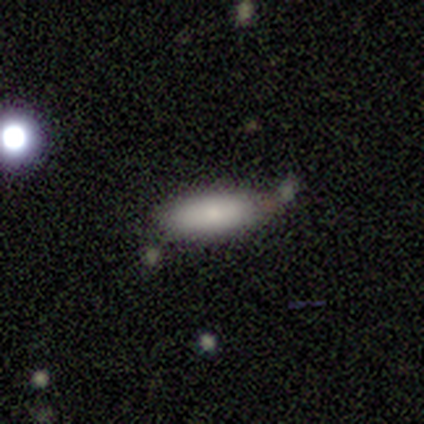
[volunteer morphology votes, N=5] A smooth galaxy with no disk features (80%) that is in between round and cigar-shaped (75%). Merging: none (60%).